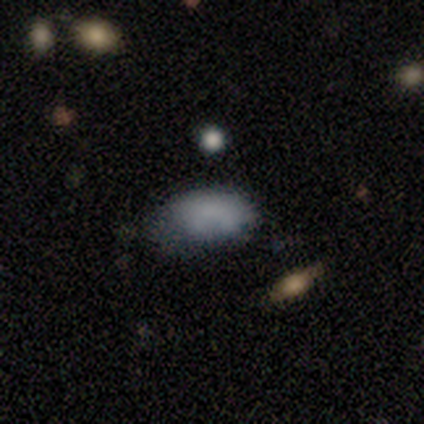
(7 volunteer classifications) smooth-or-featured: smooth: 86% | featured or disk: 14% | star or artifact: 0%
  how-rounded: in between: 83% | round: 17% | cigar-shaped: 0%
  merging: minor disturbance: 57% | none: 29% | merger: 14% | major disturbance: 0%